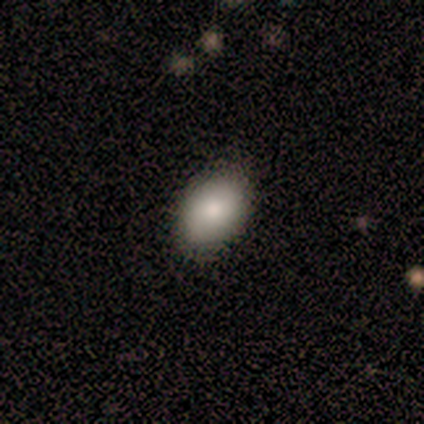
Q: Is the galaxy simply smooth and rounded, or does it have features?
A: smooth — 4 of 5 (80%).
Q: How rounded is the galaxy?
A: in between — 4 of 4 (100%).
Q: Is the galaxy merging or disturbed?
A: none — 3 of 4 (75%).